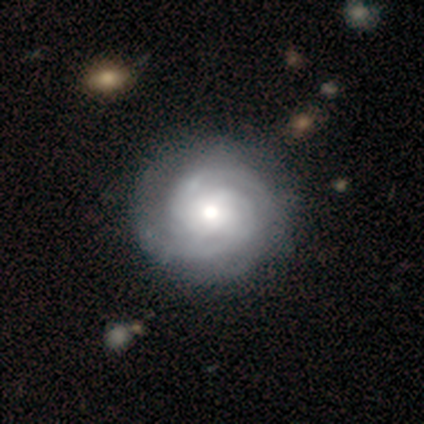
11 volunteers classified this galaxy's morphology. featured or disk 91%, smooth 9%, star or artifact 0%. Down the decision tree: edge-on disk — no (100%); bar — no (100%); spiral arms — yes (90%); spiral arm count — 2 (67%); spiral winding — tight (78%); bulge size — moderate (70%); merging — none (82%).